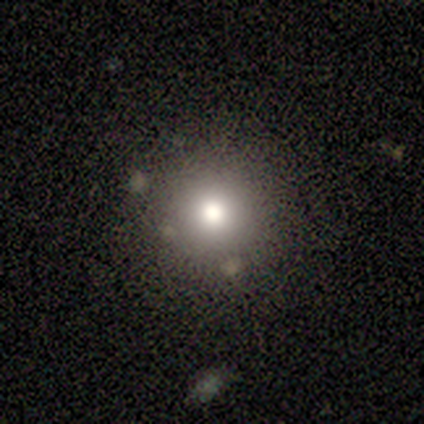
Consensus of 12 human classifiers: Smooth or featured? smooth (92%)
How rounded? round (91%)
Merging? none (75%)